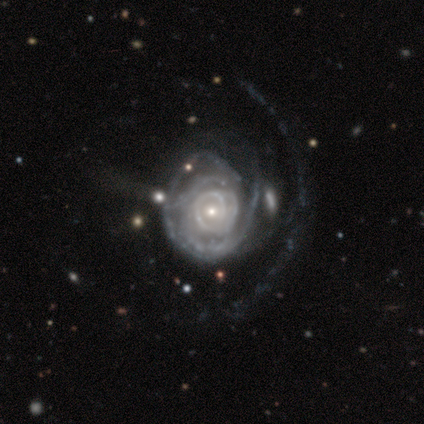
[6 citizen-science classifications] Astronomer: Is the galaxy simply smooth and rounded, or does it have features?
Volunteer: featured or disk — 83%.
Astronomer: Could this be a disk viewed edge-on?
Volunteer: no — 100%.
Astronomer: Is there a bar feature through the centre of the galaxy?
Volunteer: no — 80%.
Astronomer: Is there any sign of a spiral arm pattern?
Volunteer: yes — 80%.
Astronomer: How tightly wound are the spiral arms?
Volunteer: tight — 75%.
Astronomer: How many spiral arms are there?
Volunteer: more than 4 — 50%, tied with can't tell at 50%.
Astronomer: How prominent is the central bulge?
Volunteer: small — 80%.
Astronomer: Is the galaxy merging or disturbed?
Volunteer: none — 40%, tied with major disturbance at 40%.